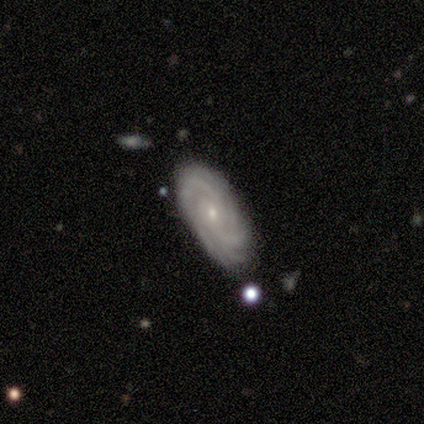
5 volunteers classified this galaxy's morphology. This is clearly a featured or disk galaxy (100%). It is clearly not viewed edge-on (100%). Bar: likely no (60%). Spiral arm pattern: clearly yes (100%). Spiral arm count: marginally 4 (40%). Spiral winding: clearly tight (80%). Central bulge: clearly small (80%). Merging: clearly none (100%).